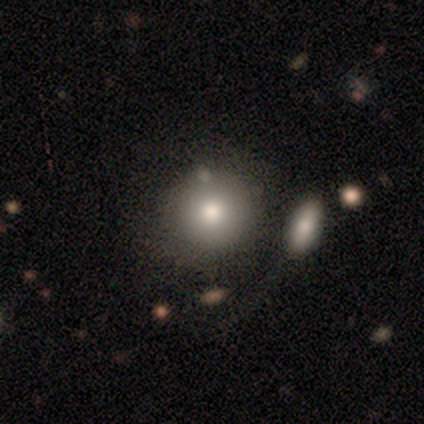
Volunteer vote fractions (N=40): Smooth or featured?
  - smooth: 80% *
  - featured or disk: 15%
  - star or artifact: 5%
How rounded?
  - round: 88% *
  - in between: 12%
  - cigar-shaped: 0%
Merging?
  - none: 71% *
  - merger: 16%
  - major disturbance: 11%
  - minor disturbance: 3%